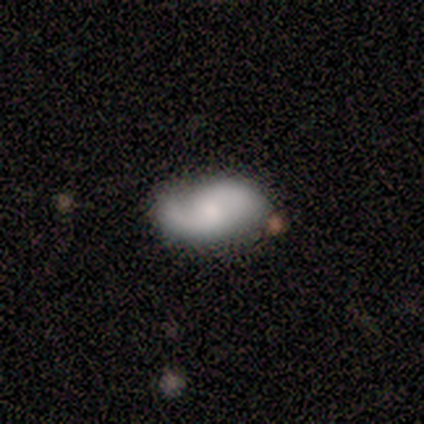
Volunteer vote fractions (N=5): smooth-or-featured: featured or disk: 100% | smooth: 0% | star or artifact: 0%
  disk-edge-on: no: 80% | yes: 20%
    bar: no: 75% | weak: 25% | strong: 0%
    has-spiral-arms: yes: 100% | no: 0%
      spiral-winding: medium: 50% | tight: 25% | loose: 25%
      spiral-arm-count: 2: 100% | 1: 0% | 3: 0% | 4: 0% | more than 4: 0% | can't tell: 0%
    bulge-size: small: 75% | moderate: 25% | dominant: 0% | large: 0% | none: 0%
  merging: none: 80% | minor disturbance: 20% | major disturbance: 0% | merger: 0%